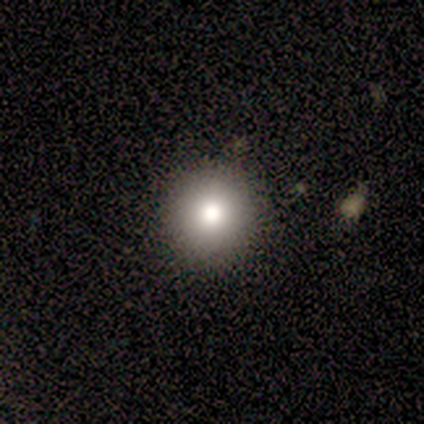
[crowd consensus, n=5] smooth-or-featured: smooth: 80% | star or artifact: 20% | featured or disk: 0%
  how-rounded: round: 75% | in between: 25% | cigar-shaped: 0%
  merging: none: 75% | minor disturbance: 25% | major disturbance: 0% | merger: 0%